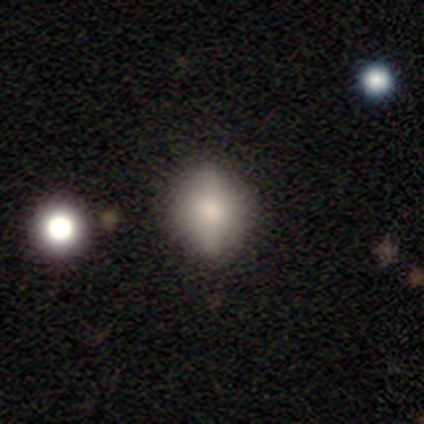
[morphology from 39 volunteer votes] A smooth galaxy with no disk features (72%) that is round (68%). Merging: none (89%).